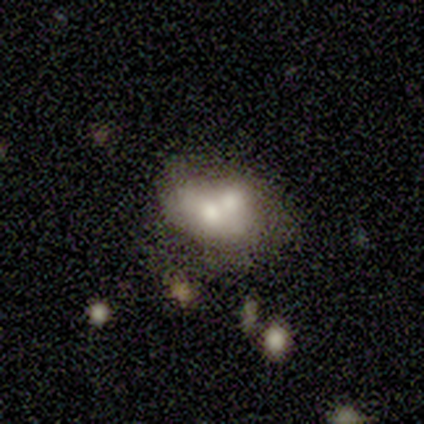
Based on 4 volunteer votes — A featured or disk galaxy (50%) with no bar (100%), no spiral arms (100%) and a moderate central bulge (50%, tied with small). Merging: merger (100%).